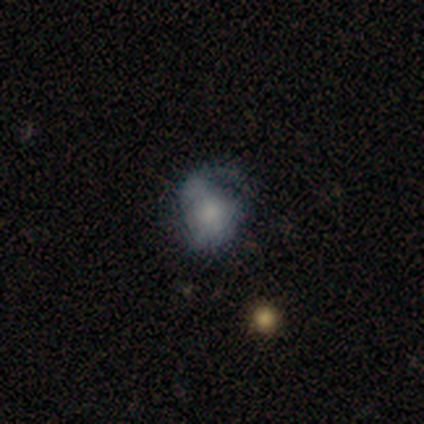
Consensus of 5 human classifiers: Overall: smooth (60%; featured or disk 40%). How rounded: round (100%). Merging: none (40%, tied with minor disturbance).